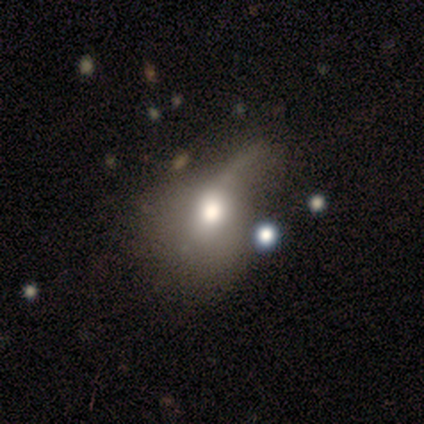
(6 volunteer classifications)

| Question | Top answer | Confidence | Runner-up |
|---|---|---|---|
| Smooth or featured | featured or disk | 67% | smooth (33%) |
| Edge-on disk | no | 75% | yes (25%) |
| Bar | no | 100% | — |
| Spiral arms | no | 100% | — |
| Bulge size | moderate | 33% | tied: small (33%), none (33%) |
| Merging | minor disturbance | 33% | tied: major disturbance (33%) |